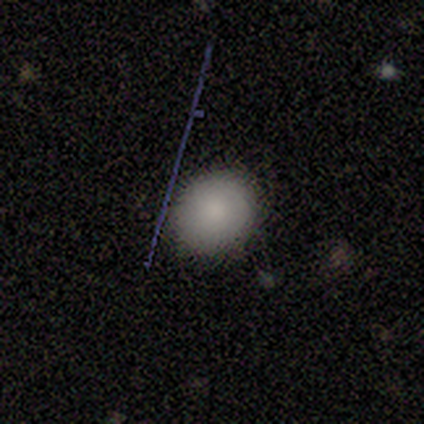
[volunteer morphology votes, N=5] smooth-or-featured: smooth: 100% | featured or disk: 0% | star or artifact: 0%
  how-rounded: round: 80% | in between: 20% | cigar-shaped: 0%
  merging: none: 80% | minor disturbance: 20% | major disturbance: 0% | merger: 0%